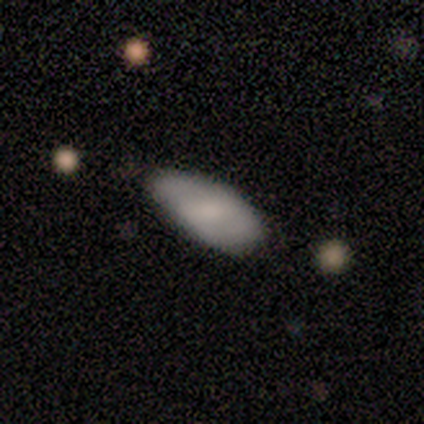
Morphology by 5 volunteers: This is clearly a smooth galaxy (80%). How rounded: clearly in between (100%). Merging: likely minor disturbance (60%).